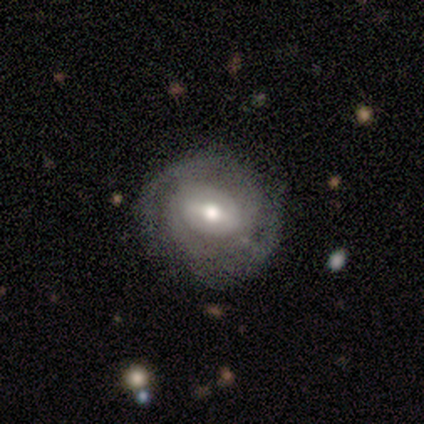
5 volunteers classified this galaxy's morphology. This is clearly a featured or disk galaxy (80%). It is clearly not viewed edge-on (100%). Bar: possibly weak (50%, tied with no). Spiral arm pattern: likely yes (75%). Spiral arm count: marginally 2 (33%, tied with 3 and can't tell). Spiral winding: likely tight (67%). Central bulge: likely small (75%). Merging: likely none (60%).